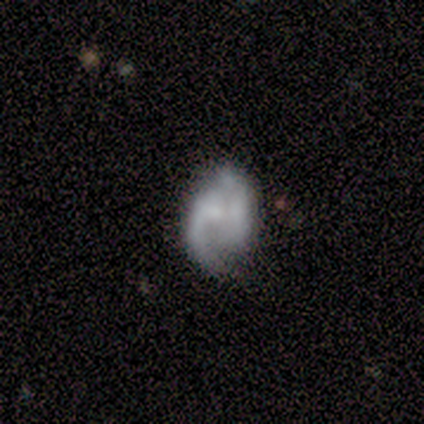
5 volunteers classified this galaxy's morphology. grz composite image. It shows a featured or disk galaxy (80%) with no bar (50%), 1 (33%, tied with 2 and 3) loose (100%) spiral arms (75%) and a large central bulge (25%, tied with moderate, small and none). Merging: minor disturbance (40%, tied with major disturbance).